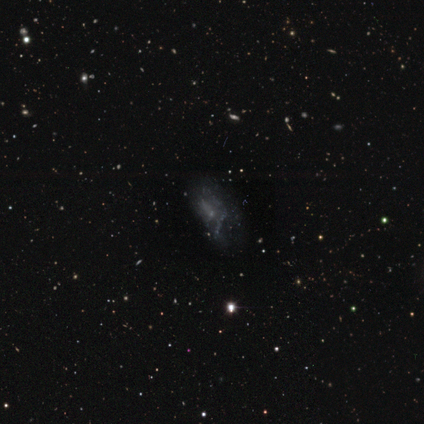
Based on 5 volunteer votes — Morphology: type=featured or disk (80%); edge-on=no (100%); bar=no (100%); spiral arms=no (100%); bulge=none (100%); merging=none (40%, tied with minor disturbance).